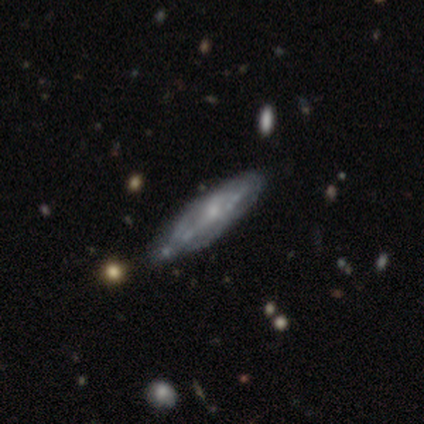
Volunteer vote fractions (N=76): This is likely a featured or disk galaxy (74%). It is likely not viewed edge-on (73%). Bar: likely no (73%). Spiral arm pattern: possibly yes (56%). Spiral arm count: clearly can't tell (87%). Spiral winding: marginally medium (39%). Central bulge: likely small (76%). Merging: marginally none (38%).